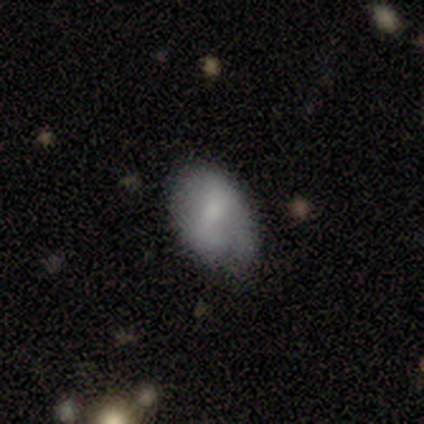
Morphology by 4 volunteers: A smooth galaxy with no disk features (50%, tied with featured or disk) that is in between round and cigar-shaped (100%).

Vote fractions:
- Smooth or featured? smooth: 50% (tied) / featured or disk: 50% (tied) / star or artifact: 0%
- How rounded? in between: 100% / round: 0% / cigar-shaped: 0%
- Merging? minor disturbance: 75% / none: 25% / major disturbance: 0% / merger: 0%